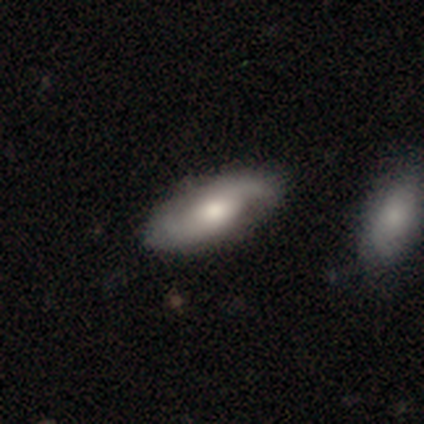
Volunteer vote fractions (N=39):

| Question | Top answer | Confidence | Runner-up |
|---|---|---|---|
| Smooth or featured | featured or disk | 69% | smooth (26%) |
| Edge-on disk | no | 89% | yes (11%) |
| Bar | no | 79% | weak (21%) |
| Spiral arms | yes | 100% | — |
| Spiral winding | medium | 50% | loose (33%) |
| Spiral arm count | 2 | 88% | 1 (12%) |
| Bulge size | moderate | 58% | small (29%) |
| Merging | none | 59% | minor disturbance (32%) |